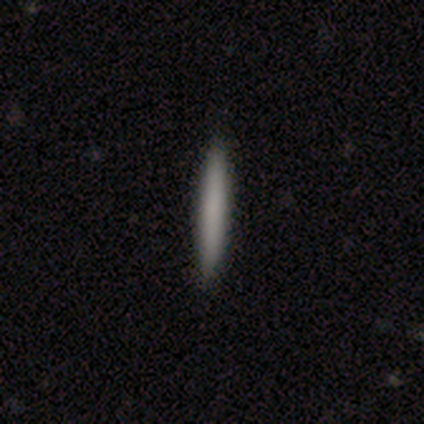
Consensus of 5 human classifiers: Q: Smooth or featured?
A: smooth (100%)
Q: How rounded?
A: cigar-shaped (100%)
Q: Merging?
A: none (100%)